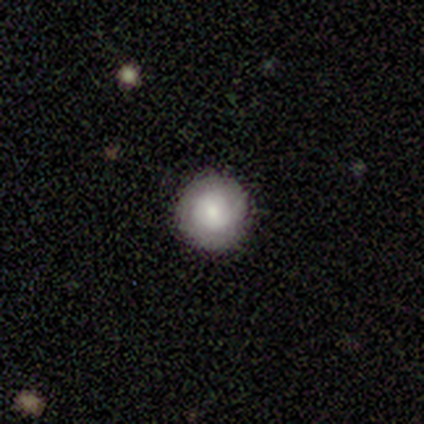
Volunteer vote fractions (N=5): This is likely a smooth galaxy (60%). How rounded: clearly round (100%). Merging: clearly none (100%).